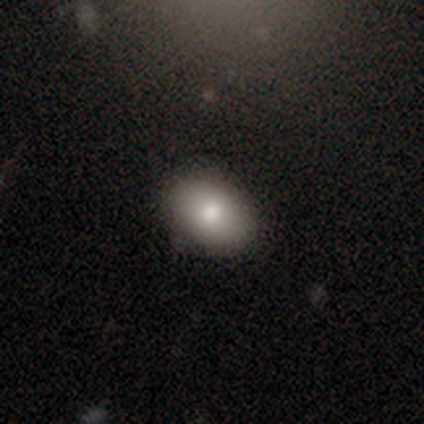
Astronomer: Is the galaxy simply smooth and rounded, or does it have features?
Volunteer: smooth — 100%.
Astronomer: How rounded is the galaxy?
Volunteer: in between — 80%.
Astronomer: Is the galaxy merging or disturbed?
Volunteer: none — 100%.